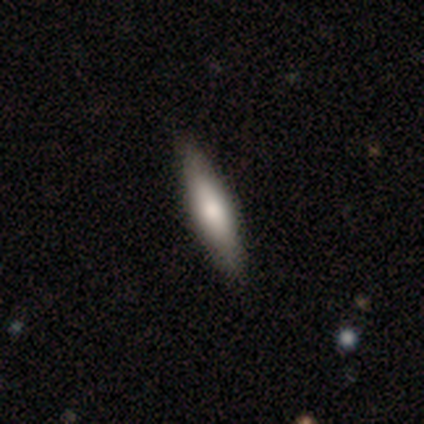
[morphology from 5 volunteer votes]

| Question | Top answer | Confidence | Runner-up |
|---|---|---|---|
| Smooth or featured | featured or disk | 60% | smooth (40%) |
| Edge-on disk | yes | 100% | — |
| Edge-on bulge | rounded | 67% | boxy (33%) |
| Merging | none | 40% | tied: minor disturbance (40%) |